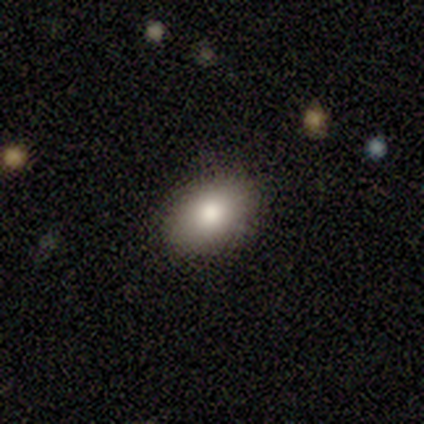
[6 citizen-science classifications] A smooth galaxy with no disk features (100%) that is in between round and cigar-shaped (83%). Merging: none (100%).